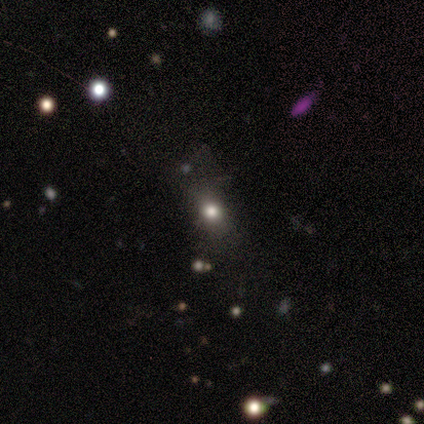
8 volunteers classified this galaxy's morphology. smooth_or_featured: smooth (p=0.75) [alt: featured or disk p=0.12]
how_rounded: round (p=0.50) [tied with: in between p=0.50]
merging: none (p=0.71) [alt: minor disturbance p=0.29]